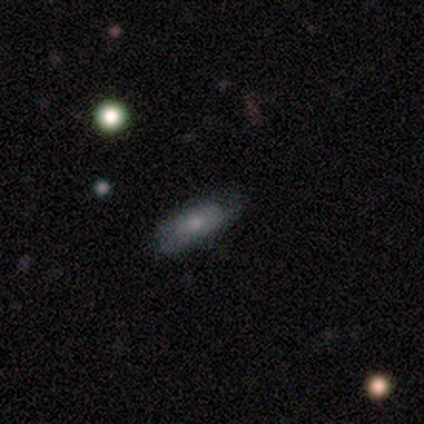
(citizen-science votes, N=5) smooth_or_featured: smooth (p=0.80) [alt: star or artifact p=0.20]
how_rounded: in between (p=0.75) [alt: cigar-shaped p=0.25]
merging: none (p=1.00)